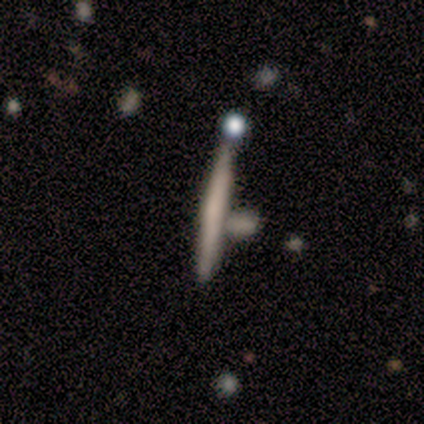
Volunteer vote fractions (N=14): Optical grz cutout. It shows a smooth galaxy with no disk features (57%) that is cigar-shaped (88%). Merging: none (71%).